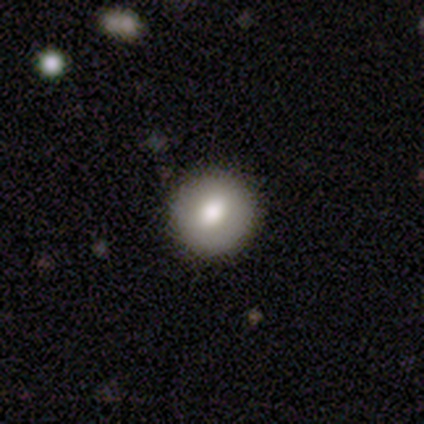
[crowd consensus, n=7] Smooth or featured? 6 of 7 (86%) said smooth. How rounded? 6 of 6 (100%) said round. Merging? 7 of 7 (100%) said none.